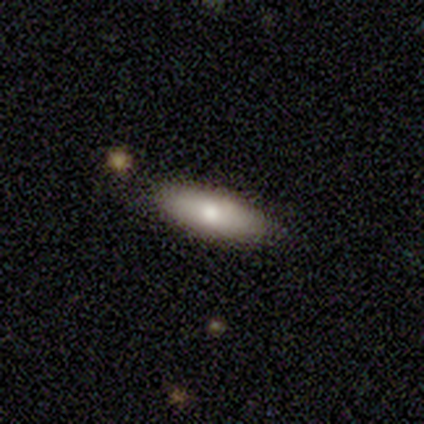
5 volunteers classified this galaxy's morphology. smooth-or-featured: smooth: 60% | featured or disk: 40% | star or artifact: 0%
  how-rounded: cigar-shaped: 67% | in between: 33% | round: 0%
  merging: none: 100% | minor disturbance: 0% | major disturbance: 0% | merger: 0%